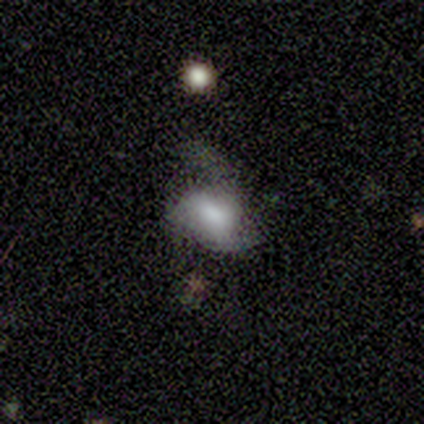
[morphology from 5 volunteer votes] Smooth or featured?
  - featured or disk: 80% *
  - star or artifact: 20%
  - smooth: 0%
Edge-on disk?
  - no: 100% *
  - yes: 0%
Bar?
  - weak: 50% * (tied)
  - no: 50% * (tied)
  - strong: 0%
Spiral arms?
  - yes: 50% * (tied)
  - no: 50% * (tied)
Spiral winding?
  - loose: 100% *
  - tight: 0%
  - medium: 0%
Spiral arm count?
  - 3: 100% *
  - 1: 0%
  - 2: 0%
  - 4: 0%
  - more than 4: 0%
  - can't tell: 0%
Bulge size?
  - large: 50% *
  - dominant: 25%
  - moderate: 25%
  - small: 0%
  - none: 0%
Merging?
  - none: 50% * (tied)
  - major disturbance: 50% * (tied)
  - minor disturbance: 0%
  - merger: 0%